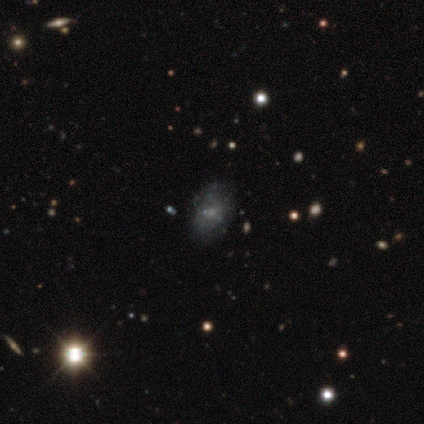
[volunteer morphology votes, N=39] Q: Smooth or featured?
A: featured or disk (49%); runner-up: smooth (31%)
Q: Edge-on disk?
A: no (100%)
Q: Bar?
A: no (89%); runner-up: strong (5%)
Q: Spiral arms?
A: no (89%); runner-up: yes (11%)
Q: Bulge size?
A: none (47%); runner-up: small (32%)
Q: Merging?
A: none (74%); runner-up: minor disturbance (13%)